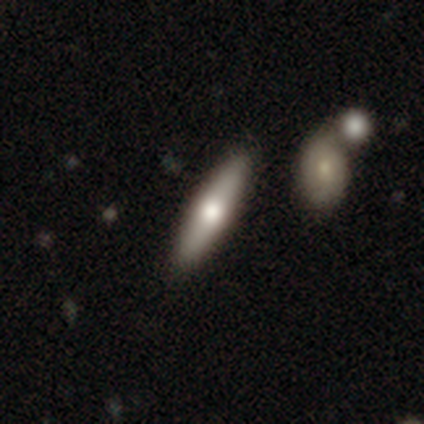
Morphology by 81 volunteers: A smooth galaxy with no disk features (51%) that is cigar-shaped (90%). Merging: none (89%).